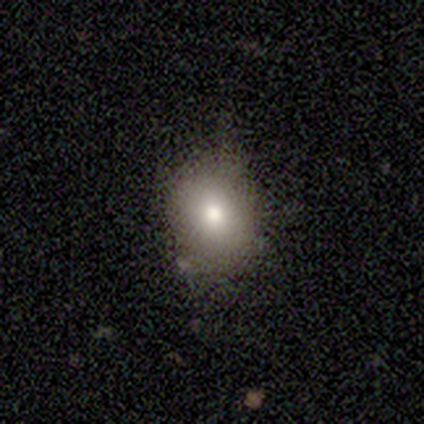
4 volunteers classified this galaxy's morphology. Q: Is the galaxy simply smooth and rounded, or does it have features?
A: smooth — 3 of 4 (75%).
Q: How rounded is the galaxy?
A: round — 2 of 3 (67%).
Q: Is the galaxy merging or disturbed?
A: none — 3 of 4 (75%).